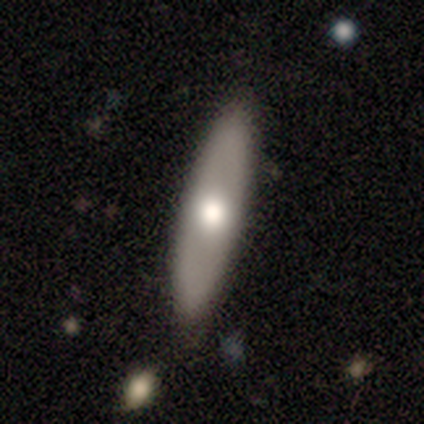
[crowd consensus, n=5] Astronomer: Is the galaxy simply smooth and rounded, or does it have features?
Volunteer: smooth — 60% (runner-up: featured or disk, 40%).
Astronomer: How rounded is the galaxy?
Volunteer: in between — 67%.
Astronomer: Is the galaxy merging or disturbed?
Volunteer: none — 100%.